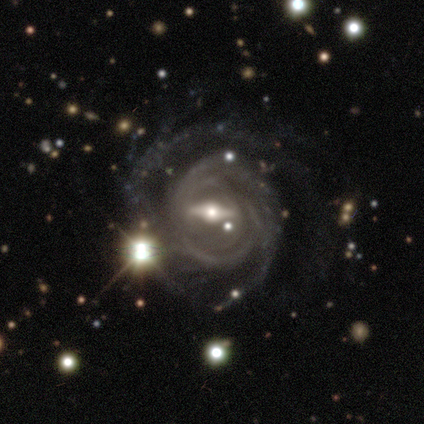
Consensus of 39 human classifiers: Smooth or featured? featured or disk (92%)
Edge-on disk? no (92%)
Bar? strong (79%)
Spiral arms? yes (94%)
Spiral winding? tight (48%)
Spiral arm count? can't tell (39%)
Bulge size? moderate (67%)
Merging? none (24%, tied with major disturbance)